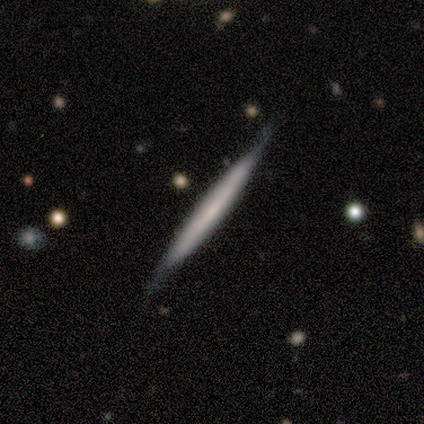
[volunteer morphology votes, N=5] smooth_or_featured: featured or disk (p=0.80) [alt: smooth p=0.20]
disk_edge_on: yes (p=1.00)
edge_on_bulge: none (p=0.50) [tied with: rounded p=0.50]
merging: none (p=0.60) [alt: minor disturbance p=0.40]